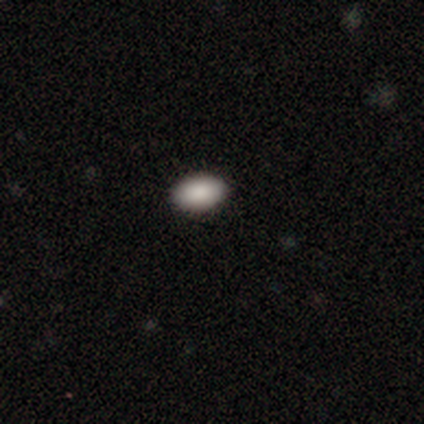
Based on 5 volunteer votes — smooth_or_featured: smooth (p=1.00)
how_rounded: in between (p=1.00)
merging: none (p=0.80) [alt: minor disturbance p=0.20]